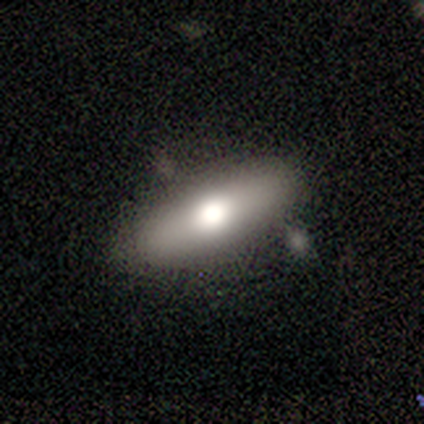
Overall: smooth (60%; featured or disk 40%). How rounded: cigar-shaped (67%; round 33%). Merging: none (100%).